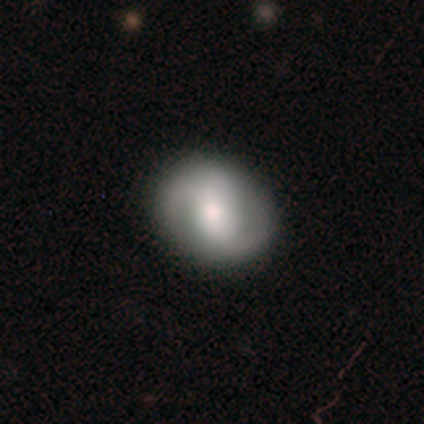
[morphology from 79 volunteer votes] Smooth or featured? featured or disk (75%)
Edge-on disk? no (97%)
Bar? weak (40%)
Spiral arms? yes (95%)
Spiral winding? medium (59%)
Spiral arm count? 2 (94%)
Bulge size? moderate (61%)
Merging? none (45%)